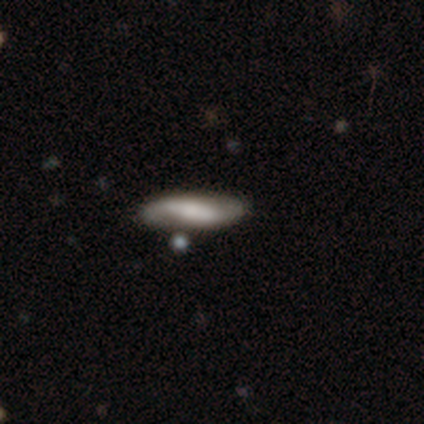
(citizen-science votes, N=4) smooth 50% (tied), featured or disk 50% (tied), star or artifact 0%. Down the decision tree: how rounded — in between (50%, tied with cigar-shaped); merging — none (75%).